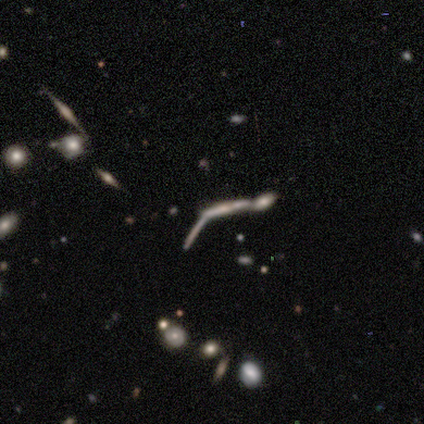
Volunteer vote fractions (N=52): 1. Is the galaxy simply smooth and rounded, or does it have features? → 62% featured or disk, 23% star or artifact, 15% smooth.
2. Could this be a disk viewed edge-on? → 81% yes, 19% no.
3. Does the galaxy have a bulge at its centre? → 46% rounded, 27% boxy, 27% none.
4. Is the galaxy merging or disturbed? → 55% merger, 25% none, 10% minor disturbance, 10% major disturbance.